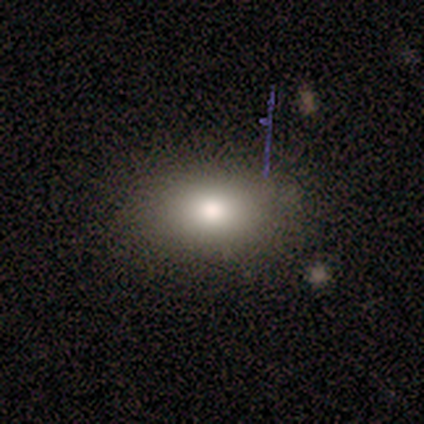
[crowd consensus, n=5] smooth_or_featured: smooth (p=0.40) [tied with: star or artifact p=0.40]
how_rounded: in between (p=1.00)
merging: none (p=0.67) [alt: minor disturbance p=0.33]